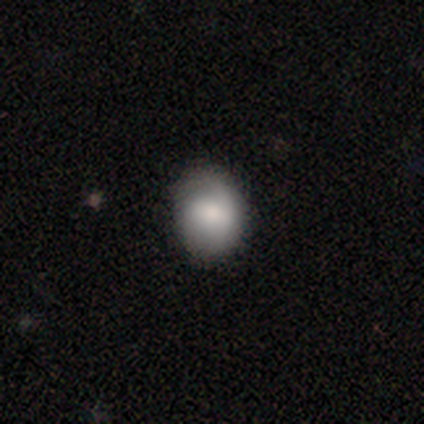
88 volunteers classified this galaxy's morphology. Smooth or featured? smooth (72%)
How rounded? round (57%)
Merging? none (76%)